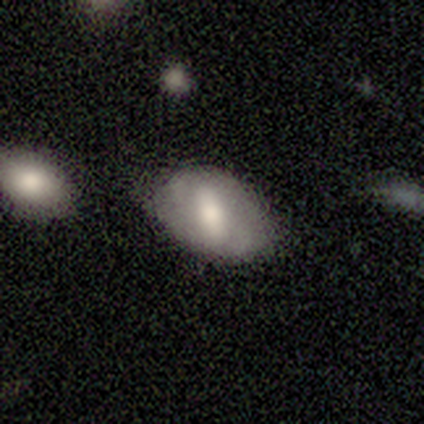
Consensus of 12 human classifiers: Overall: smooth (50%; featured or disk 42%). How rounded: in between (100%). Merging: none (73%).